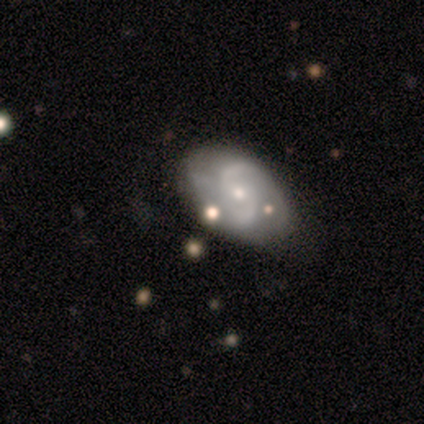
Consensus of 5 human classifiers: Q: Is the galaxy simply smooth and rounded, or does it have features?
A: smooth — 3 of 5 (60%).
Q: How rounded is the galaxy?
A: in between — 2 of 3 (67%).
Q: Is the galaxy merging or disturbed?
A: none — 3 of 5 (60%).